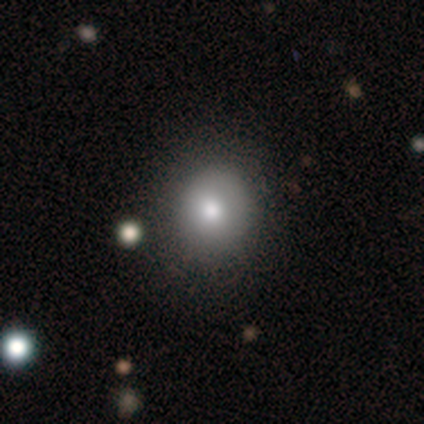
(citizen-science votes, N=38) smooth-or-featured: smooth: 71% | featured or disk: 16% | star or artifact: 13%
  how-rounded: round: 70% | in between: 26% | cigar-shaped: 4%
  merging: none: 82% | minor disturbance: 12% | major disturbance: 6% | merger: 0%